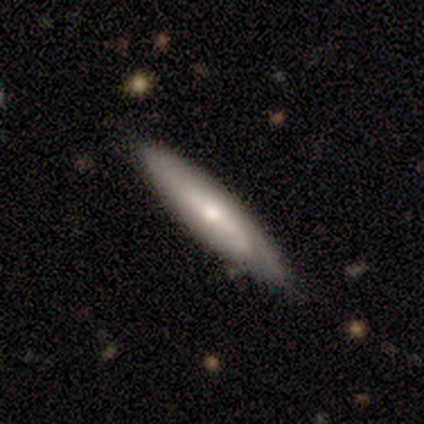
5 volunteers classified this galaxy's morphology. featured or disk 80%, smooth 20%, star or artifact 0%. Down the decision tree: edge-on disk — yes (75%); edge-on bulge — none (67%); merging — none (60%).